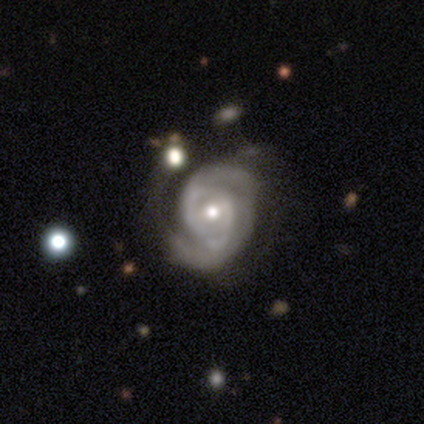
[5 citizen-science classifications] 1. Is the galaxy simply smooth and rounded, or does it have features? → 100% featured or disk, 0% smooth, 0% star or artifact.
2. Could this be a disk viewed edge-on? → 100% no, 0% yes.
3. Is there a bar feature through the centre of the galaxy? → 60% weak, 40% no, 0% strong.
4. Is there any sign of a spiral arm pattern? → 100% yes, 0% no.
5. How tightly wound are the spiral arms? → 60% tight, 20% medium, 20% loose.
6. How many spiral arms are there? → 60% 2, 40% can't tell, 0% 1, 0% 3, 0% 4, 0% more than 4.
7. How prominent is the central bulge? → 60% moderate, 40% small, 0% dominant, 0% large, 0% none.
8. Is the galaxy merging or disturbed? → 60% none, 20% minor disturbance, 20% major disturbance, 0% merger.